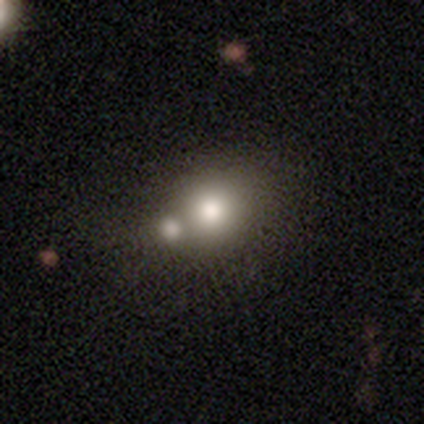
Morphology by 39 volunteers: Smooth or featured: smooth — 74% (featured or disk — 15%)
How rounded: round — 79% (in between — 21%)
Merging: merger — 71%